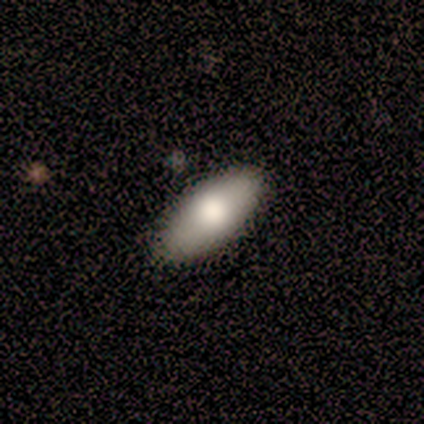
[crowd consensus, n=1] Smooth or featured? featured or disk (100%)
Edge-on disk? no (100%)
Bar? weak (100%)
Spiral arms? no (100%)
Bulge size? large (100%)
Merging? none (100%)